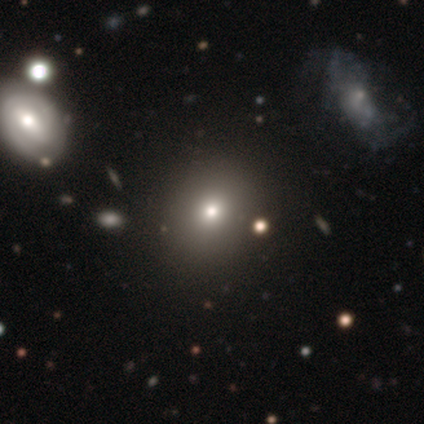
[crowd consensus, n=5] Smooth or featured?
  - smooth: 40% * (tied)
  - star or artifact: 40% * (tied)
  - featured or disk: 20%
How rounded?
  - round: 100% *
  - in between: 0%
  - cigar-shaped: 0%
Merging?
  - none: 67% *
  - minor disturbance: 33%
  - major disturbance: 0%
  - merger: 0%